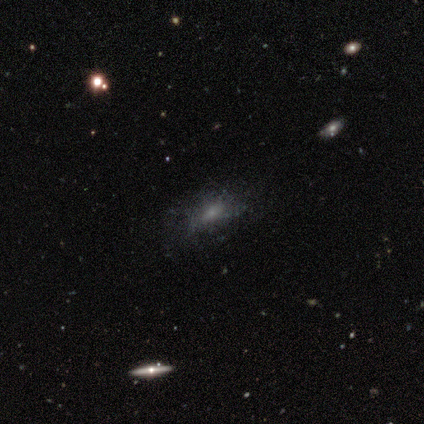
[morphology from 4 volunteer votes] type=featured or disk (75%); edge-on=no (100%); bar=no (100%); spiral arms=no (67%); bulge=small (100%); merging=none (50%).